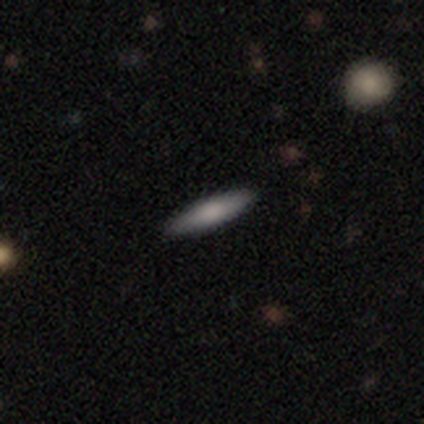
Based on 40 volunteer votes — Morphology: type=smooth (68%); roundness=cigar-shaped (89%); merging=none (92%).